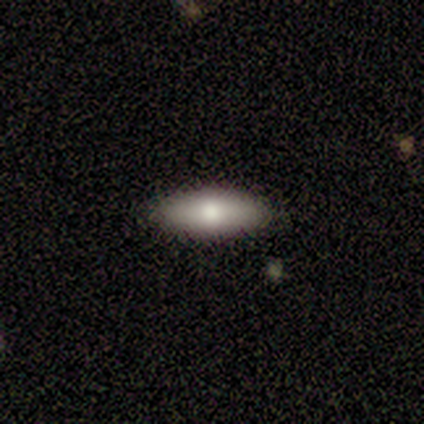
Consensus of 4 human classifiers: Smooth or featured? smooth (75%)
How rounded? in between (67%)
Merging? none (67%)